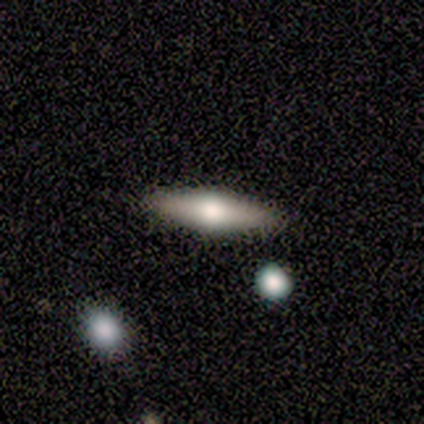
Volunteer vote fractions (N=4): This is likely a featured or disk galaxy (75%). It is likely viewed edge-on (67%). Edge-on bulge: clearly rounded (100%). Merging: clearly none (100%).